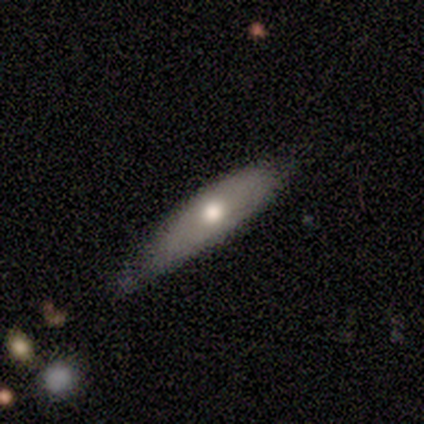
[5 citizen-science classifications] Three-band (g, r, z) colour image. It shows a smooth galaxy with no disk features (60%) that is in between round and cigar-shaped (67%). Merging: none (60%).